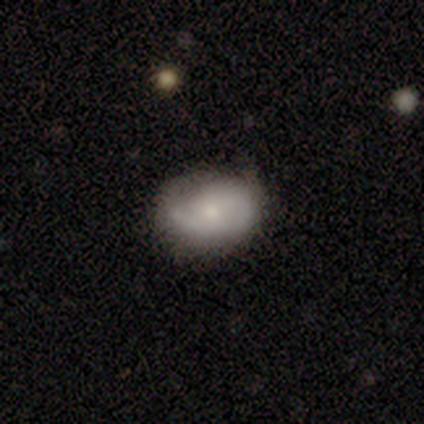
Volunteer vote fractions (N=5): A featured or disk galaxy (60%) with no bar (67%), 1 (50%, tied with 2) tight (50%, tied with medium) spiral arms (67%) and a small central bulge (67%). Merging: none (80%).